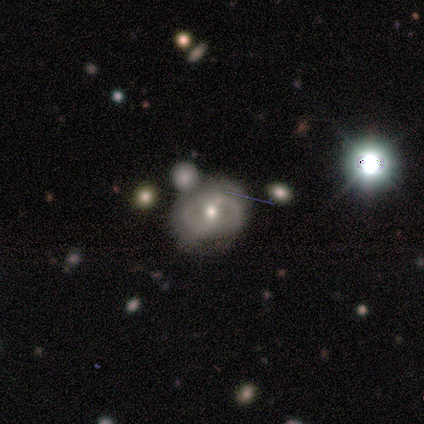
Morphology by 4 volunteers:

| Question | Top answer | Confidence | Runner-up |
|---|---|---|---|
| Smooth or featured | smooth | 50% | tied: featured or disk (50%) |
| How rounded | round | 100% | — |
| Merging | none | 50% | minor disturbance (25%) |